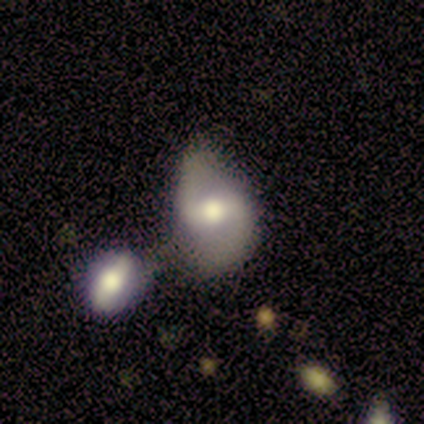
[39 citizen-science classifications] This is likely a featured or disk galaxy (72%). It is clearly not viewed edge-on (93%). Bar: marginally strong (38%). Spiral arm pattern: likely yes (73%). Spiral arm count: clearly 2 (95%). Spiral winding: likely loose (74%). Central bulge: possibly moderate (58%). Merging: marginally merger (39%).